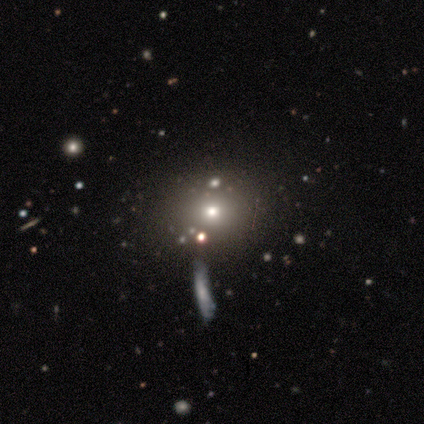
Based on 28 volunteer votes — smooth-or-featured: smooth: 64% | star or artifact: 29% | featured or disk: 7%
  how-rounded: round: 56% | in between: 44% | cigar-shaped: 0%
  merging: none: 30% (tied) | merger: 30% (tied) | minor disturbance: 5% | major disturbance: 0%